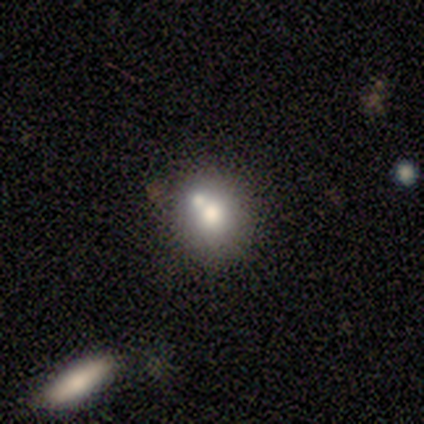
smooth 80%, featured or disk 20%, star or artifact 0%. Down the decision tree: how rounded — round (100%); merging — merger (60%).